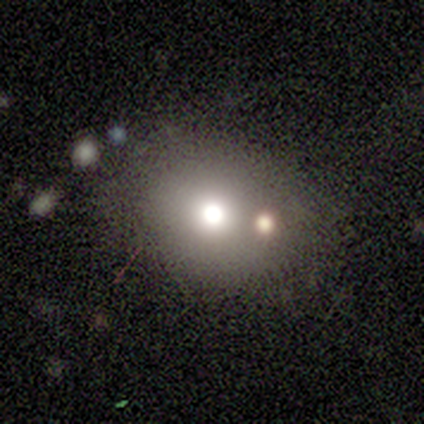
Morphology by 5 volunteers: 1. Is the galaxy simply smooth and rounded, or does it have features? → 80% smooth, 20% star or artifact, 0% featured or disk.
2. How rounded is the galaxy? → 100% round, 0% in between, 0% cigar-shaped.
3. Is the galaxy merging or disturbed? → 50% none (tied), 50% minor disturbance (tied), 0% major disturbance, 0% merger.